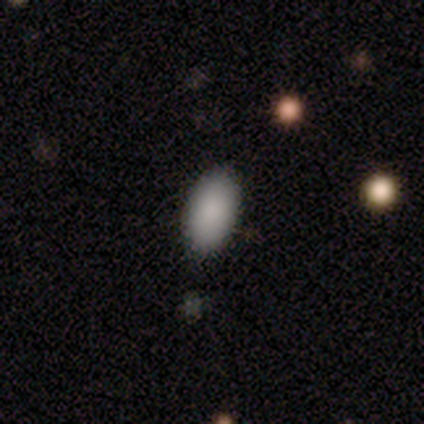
Overall: smooth (67%; star or artifact 33%). How rounded: in between (100%). Merging: none (100%).